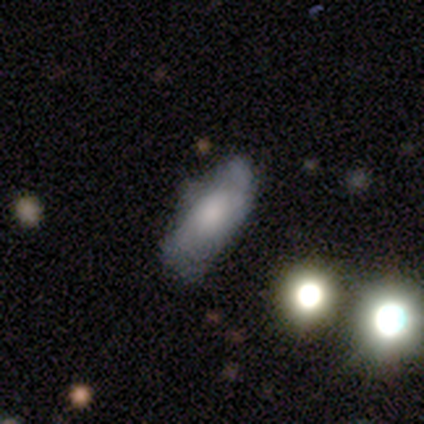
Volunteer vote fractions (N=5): Q: Smooth or featured?
A: smooth (60%); runner-up: featured or disk (40%)
Q: How rounded?
A: in between (100%)
Q: Merging?
A: none (80%); runner-up: major disturbance (20%)